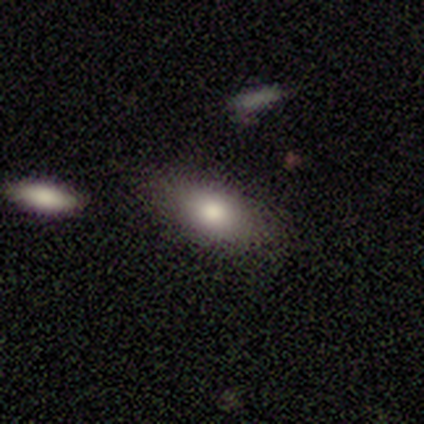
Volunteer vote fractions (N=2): smooth_or_featured: smooth (p=1.00)
how_rounded: in between (p=1.00)
merging: none (p=1.00)